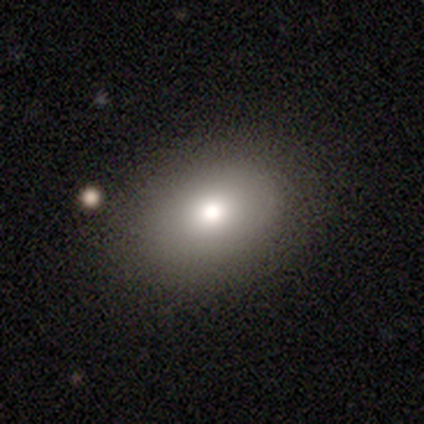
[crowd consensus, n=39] smooth_or_featured: smooth (p=0.77) [alt: featured or disk p=0.13]
how_rounded: in between (p=0.70) [alt: round p=0.27]
merging: none (p=0.83) [alt: minor disturbance p=0.14]